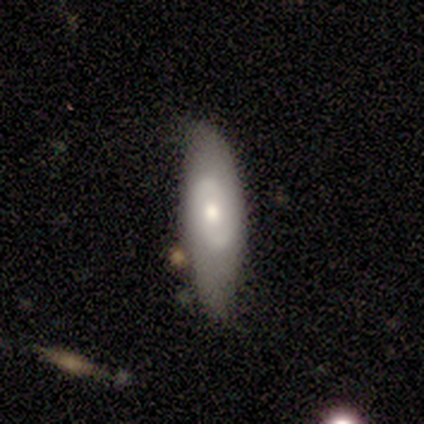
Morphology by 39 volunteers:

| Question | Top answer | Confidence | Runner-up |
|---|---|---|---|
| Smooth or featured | featured or disk | 54% | smooth (36%) |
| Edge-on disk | no | 81% | yes (19%) |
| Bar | no | 82% | weak (12%) |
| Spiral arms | no | 65% | yes (35%) |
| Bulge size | moderate | 65% | small (29%) |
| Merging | none | 66% | minor disturbance (20%) |